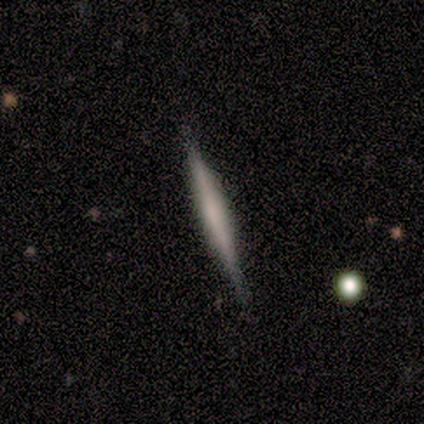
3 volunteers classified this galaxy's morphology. This appears to be a featured or disk galaxy (100%) viewed edge-on (100%) with a rounded central bulge (67%). Merging: none (100%).